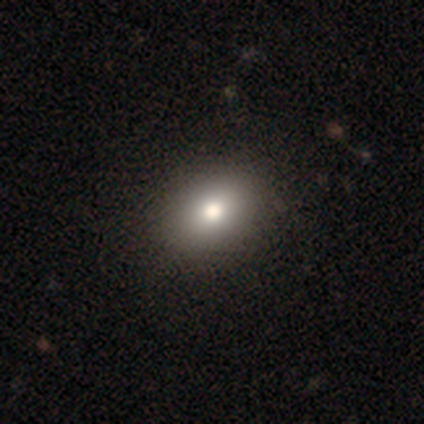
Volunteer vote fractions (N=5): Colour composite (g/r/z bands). It shows a smooth galaxy with no disk features (80%) that is round (50%, tied with in between). Merging: none (100%).